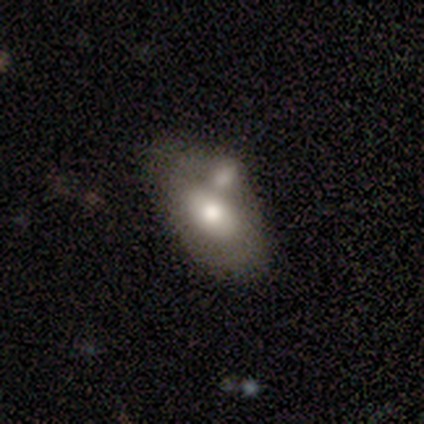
smooth_or_featured: smooth (p=0.60) [alt: featured or disk p=0.38]
how_rounded: in between (p=0.92) [alt: cigar-shaped p=0.08]
merging: merger (p=0.59) [alt: none p=0.13]